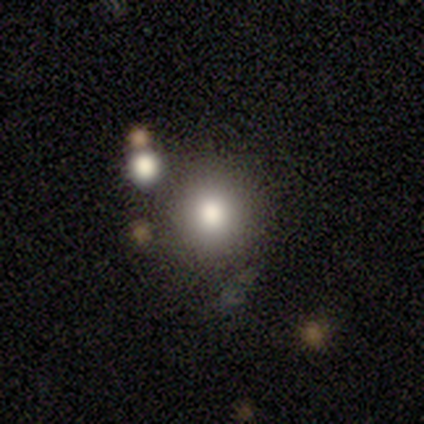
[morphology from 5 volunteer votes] Smooth or featured?
  - smooth: 80% *
  - featured or disk: 20%
  - star or artifact: 0%
How rounded?
  - round: 100% *
  - in between: 0%
  - cigar-shaped: 0%
Merging?
  - none: 80% *
  - minor disturbance: 20%
  - major disturbance: 0%
  - merger: 0%